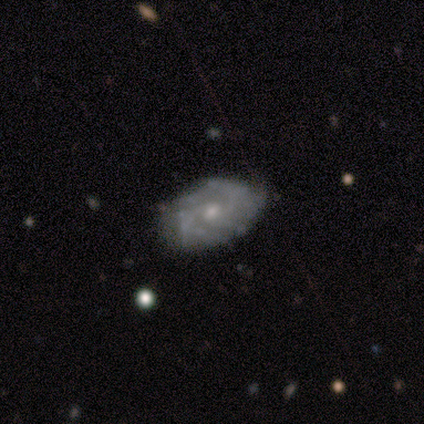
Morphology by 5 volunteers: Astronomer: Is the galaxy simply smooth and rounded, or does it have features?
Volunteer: featured or disk — 80%.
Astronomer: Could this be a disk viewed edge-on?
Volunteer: no — 75%.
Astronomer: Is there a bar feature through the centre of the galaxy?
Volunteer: no — 100%.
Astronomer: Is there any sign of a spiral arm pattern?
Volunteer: yes — 67%.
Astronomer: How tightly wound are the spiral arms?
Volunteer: tight — 50%, tied with medium at 50%.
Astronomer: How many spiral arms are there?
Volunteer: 4 — 50%, tied with can't tell at 50%.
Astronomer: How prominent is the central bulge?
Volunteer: moderate — 100%.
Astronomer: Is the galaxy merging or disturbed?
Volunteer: none — 100%.